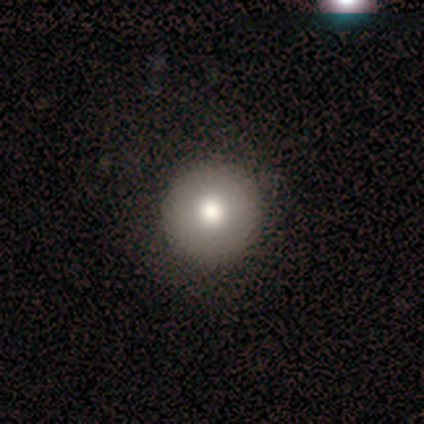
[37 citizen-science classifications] A smooth galaxy with no disk features (54%) that is round (95%). Merging: none (91%).